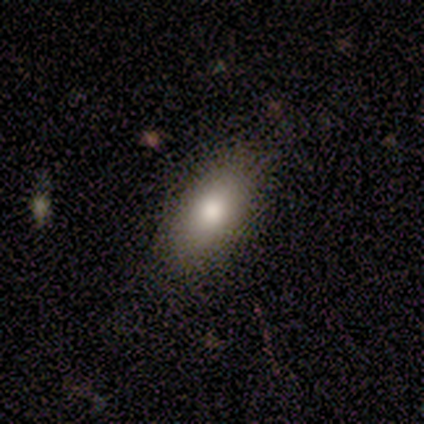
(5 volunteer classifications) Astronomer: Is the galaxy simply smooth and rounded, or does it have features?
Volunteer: smooth — 100%.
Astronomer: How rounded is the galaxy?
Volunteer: in between — 100%.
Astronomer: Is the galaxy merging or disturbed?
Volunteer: none — 100%.